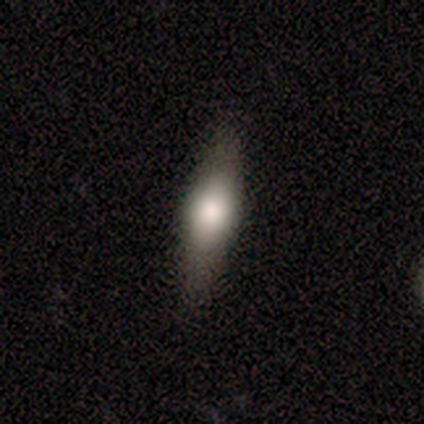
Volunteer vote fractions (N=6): A smooth galaxy with no disk features (83%) that is cigar-shaped (80%). Merging: none (100%).